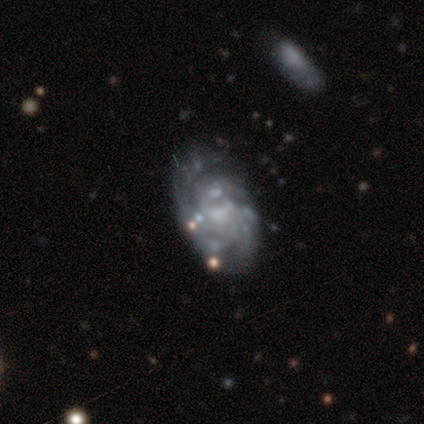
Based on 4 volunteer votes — This is likely a featured or disk galaxy (75%). It is clearly not viewed edge-on (100%). Bar: likely no (67%). Spiral arm pattern: clearly yes (100%). Spiral arm count: likely can't tell (67%). Spiral winding: clearly tight (100%). Central bulge: marginally moderate (33%, tied with small and none). Merging: possibly none (50%, tied with minor disturbance).